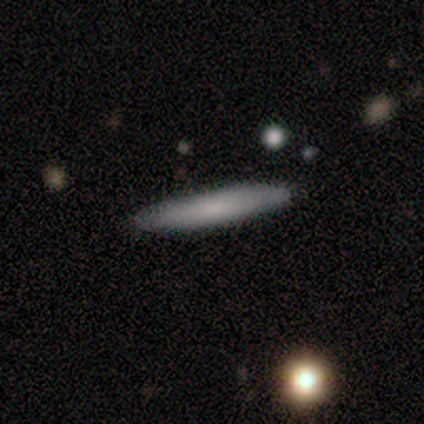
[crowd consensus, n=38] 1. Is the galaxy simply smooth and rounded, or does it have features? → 63% smooth, 34% featured or disk, 3% star or artifact.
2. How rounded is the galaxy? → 100% cigar-shaped, 0% round, 0% in between.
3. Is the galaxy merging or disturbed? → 92% none, 5% minor disturbance, 3% major disturbance, 0% merger.